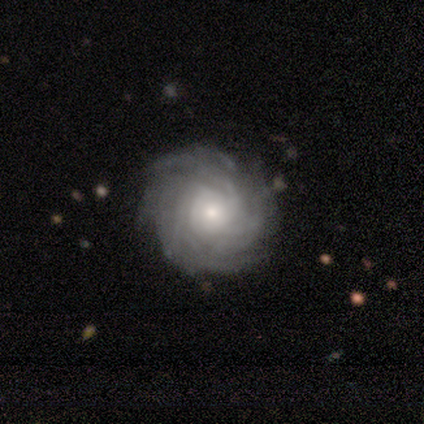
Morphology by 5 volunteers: smooth_or_featured: featured or disk (p=1.00)
disk_edge_on: no (p=1.00)
bar: no (p=0.80) [alt: weak p=0.20]
has_spiral_arms: yes (p=1.00)
spiral_winding: tight (p=1.00)
spiral_arm_count: more than 4 (p=0.60) [alt: can't tell p=0.40]
bulge_size: moderate (p=0.40) [tied with: small p=0.40]
merging: none (p=0.80) [alt: minor disturbance p=0.20]